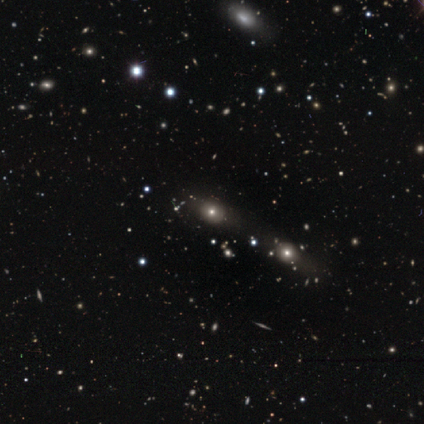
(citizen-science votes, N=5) Overall: smooth (40%, tied with star or artifact). How rounded: in between (50%, tied with cigar-shaped). Merging: none (100%).